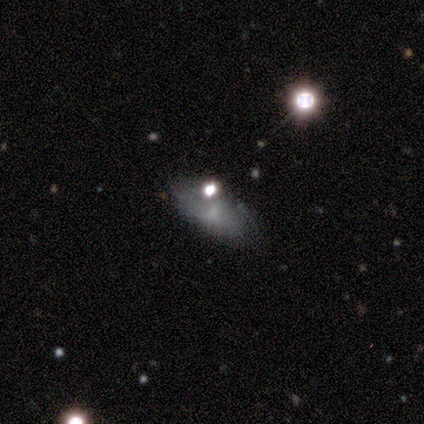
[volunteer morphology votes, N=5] Overall: smooth (60%; featured or disk 20%). How rounded: in between (100%). Merging: none (75%).